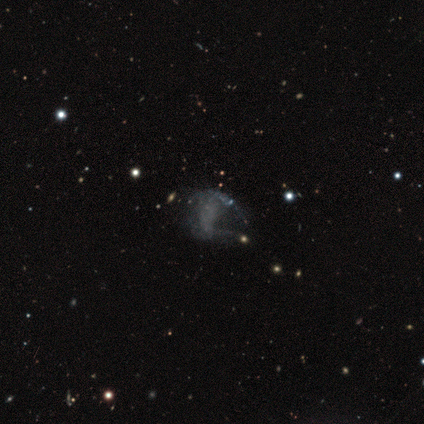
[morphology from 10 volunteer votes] Overall: featured or disk (60%; smooth 20%). Edge-on disk: no (100%). Bar: no (83%). Spiral arms: yes (67%; no 33%). Spiral arm count: 2 (50%; 1 25%). Spiral winding: medium (75%). Bulge size: none (67%; small 33%). Merging: minor disturbance (50%; none 25%).